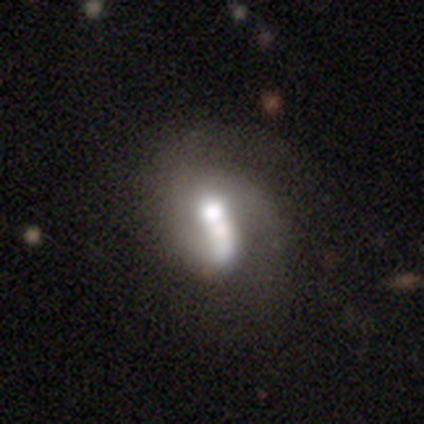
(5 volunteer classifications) This appears to be a featured or disk galaxy (60%) with no bar (100%), 2 (50%, tied with 3) medium (100%) spiral arms (67%) and a moderate central bulge (67%). Merging: merger (60%).